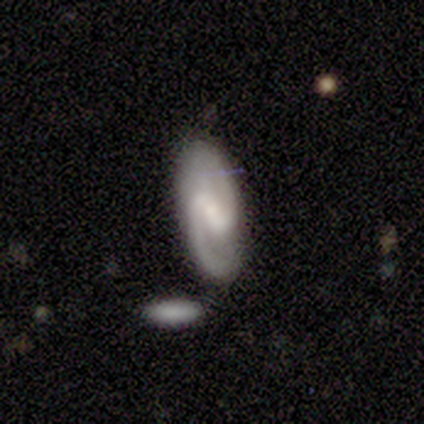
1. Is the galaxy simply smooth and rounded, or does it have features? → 100% featured or disk, 0% smooth, 0% star or artifact.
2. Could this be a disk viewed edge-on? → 100% no, 0% yes.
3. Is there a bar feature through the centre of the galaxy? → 60% weak, 20% strong, 20% no.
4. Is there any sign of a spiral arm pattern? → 100% yes, 0% no.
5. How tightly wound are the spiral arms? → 80% medium, 20% loose, 0% tight.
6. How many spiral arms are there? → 80% 2, 20% 1, 0% 3, 0% 4, 0% more than 4, 0% can't tell.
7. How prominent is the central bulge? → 60% small, 40% none, 0% dominant, 0% large, 0% moderate.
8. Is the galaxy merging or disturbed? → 80% none, 20% merger, 0% minor disturbance, 0% major disturbance.